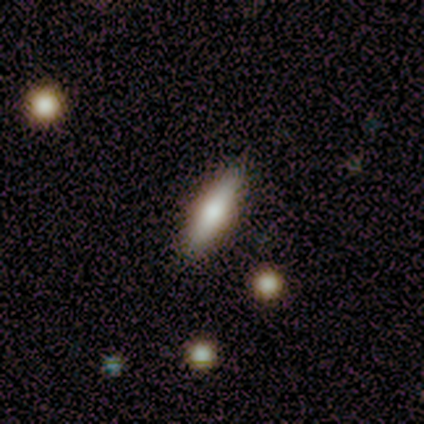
Smooth or featured: smooth — 80% (featured or disk — 20%)
How rounded: cigar-shaped — 75% (in between — 25%)
Merging: none — 100%